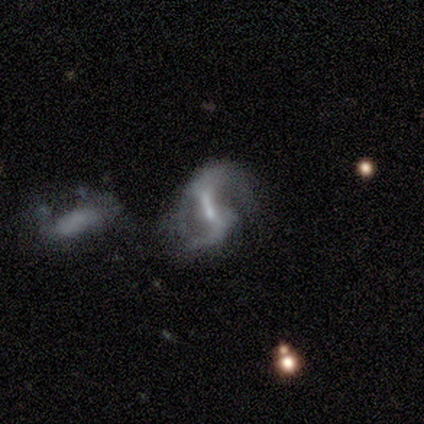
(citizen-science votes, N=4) A featured or disk galaxy (100%) with a strong bar (67%), 2 (67%) loose (67%) spiral arms (100%) and a large central bulge (33%, tied with moderate and small).

Vote fractions:
- Smooth or featured? featured or disk: 100% / smooth: 0% / star or artifact: 0%
- Edge-on disk? no: 75% / yes: 25%
- Bar? strong: 67% / weak: 33% / no: 0%
- Spiral arms? yes: 100% / no: 0%
- Spiral winding? loose: 67% / tight: 33% / medium: 0%
- Spiral arm count? 2: 67% / 4: 33% / 1: 0% / 3: 0% / more than 4: 0% / can't tell: 0%
- Bulge size? large: 33% (tied) / moderate: 33% (tied) / small: 33% (tied) / dominant: 0% / none: 0%
- Merging? none: 75% / minor disturbance: 25% / major disturbance: 0% / merger: 0%